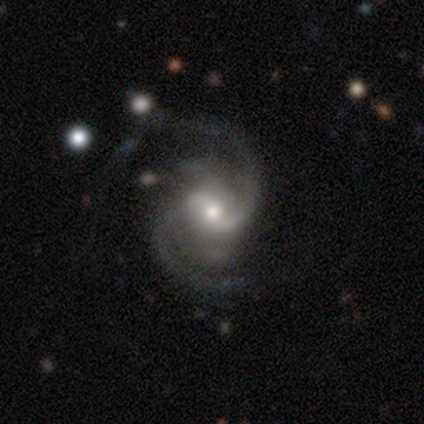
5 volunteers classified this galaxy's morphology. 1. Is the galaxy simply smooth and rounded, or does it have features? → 100% featured or disk, 0% smooth, 0% star or artifact.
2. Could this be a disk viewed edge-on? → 100% no, 0% yes.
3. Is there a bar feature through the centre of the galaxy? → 80% weak, 20% no, 0% strong.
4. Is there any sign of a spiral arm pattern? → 100% yes, 0% no.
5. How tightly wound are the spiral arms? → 80% loose, 20% medium, 0% tight.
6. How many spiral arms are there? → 40% 2 (tied), 40% can't tell (tied), 20% 4, 0% 1, 0% 3, 0% more than 4.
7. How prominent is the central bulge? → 60% moderate, 40% small, 0% dominant, 0% large, 0% none.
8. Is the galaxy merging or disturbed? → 80% none, 20% major disturbance, 0% minor disturbance, 0% merger.